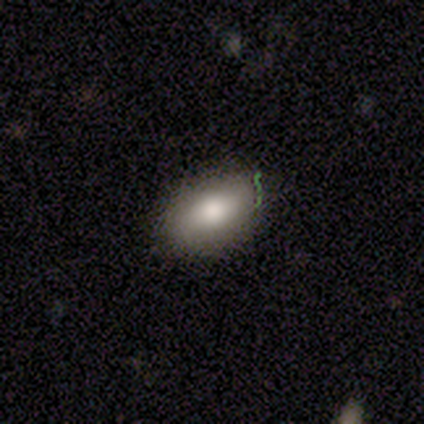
This is clearly a smooth galaxy (80%). How rounded: likely in between (75%). Merging: clearly none (100%).